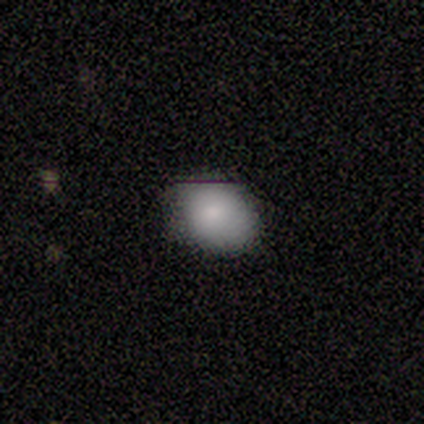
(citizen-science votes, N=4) Smooth or featured? 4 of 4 (100%) said smooth. How rounded? 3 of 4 (75%) said in between. Merging? 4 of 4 (100%) said none.